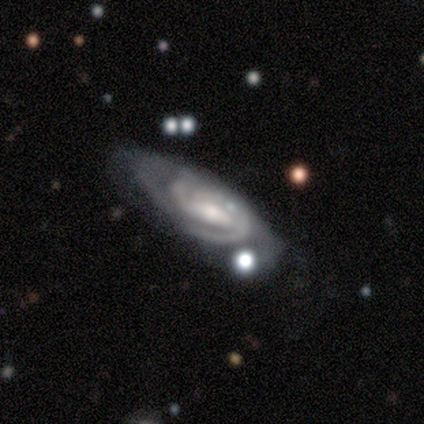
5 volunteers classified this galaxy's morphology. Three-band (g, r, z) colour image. It shows a featured or disk galaxy (100%) with a weak bar (40%, tied with no), 2 (40%, tied with can't tell) tight (60%) spiral arms (100%) and a small central bulge (80%). Merging: none (60%).